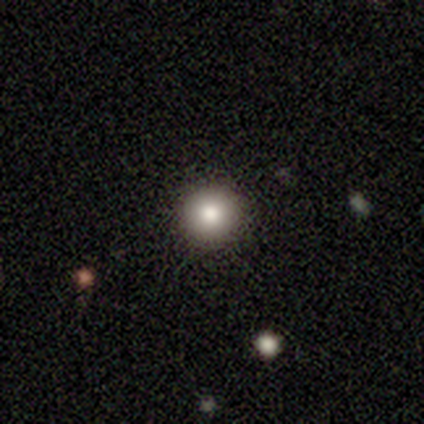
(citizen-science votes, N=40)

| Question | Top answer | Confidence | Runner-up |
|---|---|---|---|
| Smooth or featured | smooth | 78% | featured or disk (12%) |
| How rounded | round | 100% | — |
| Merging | none | 92% | minor disturbance (6%) |